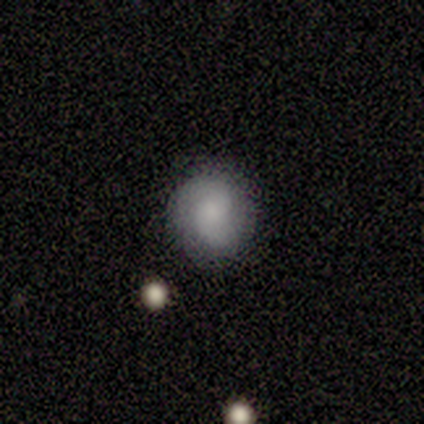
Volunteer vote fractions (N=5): A smooth galaxy with no disk features (60%) that is round (100%).

Vote fractions:
- Smooth or featured? smooth: 60% / featured or disk: 40% / star or artifact: 0%
- How rounded? round: 100% / in between: 0% / cigar-shaped: 0%
- Merging? none: 80% / minor disturbance: 20% / major disturbance: 0% / merger: 0%